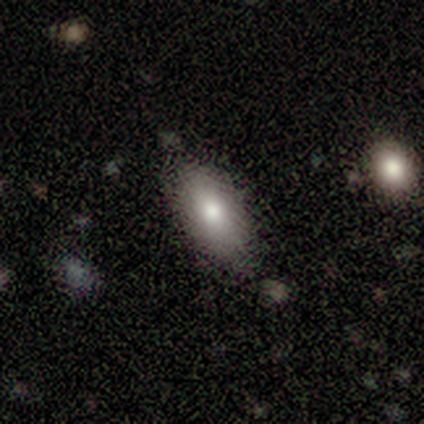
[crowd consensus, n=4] Smooth or featured? 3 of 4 (75%) said smooth. How rounded? 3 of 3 (100%) said in between. Merging? 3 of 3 (100%) said none.